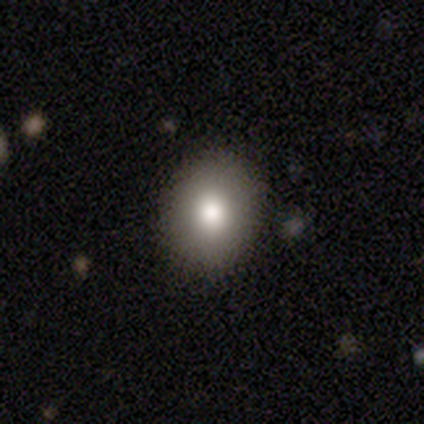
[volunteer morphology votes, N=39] type=smooth (90%); roundness=round (63%); merging=none (92%).